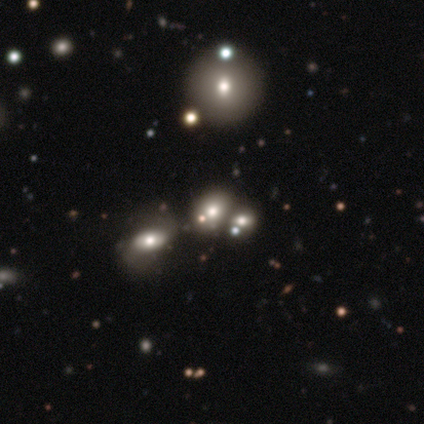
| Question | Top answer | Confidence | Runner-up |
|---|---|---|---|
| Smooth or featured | smooth | 50% | tied: star or artifact (50%) |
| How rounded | round | 100% | — |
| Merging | none | 100% | — |